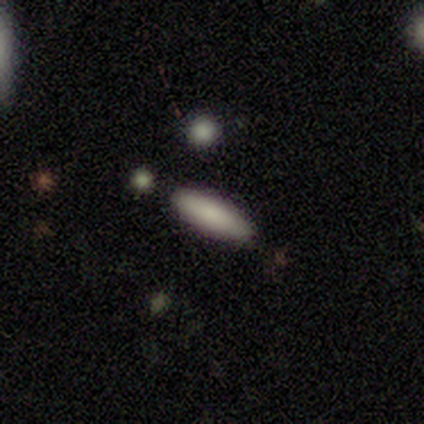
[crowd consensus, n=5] A smooth galaxy with no disk features (100%) that is cigar-shaped (60%). Merging: none (100%).